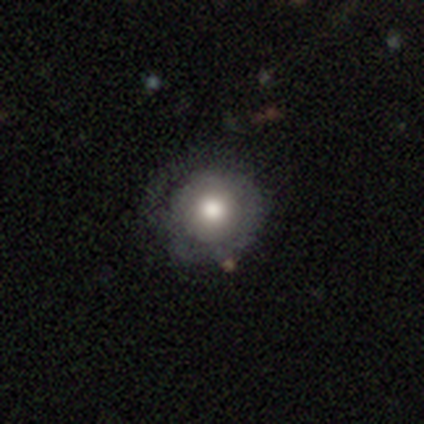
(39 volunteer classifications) smooth 56%, featured or disk 31%, star or artifact 13%. Down the decision tree: how rounded — round (100%); merging — none (74%).